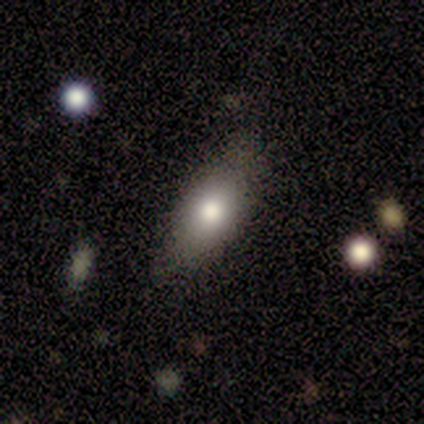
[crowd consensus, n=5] Smooth or featured?
  - smooth: 60% *
  - featured or disk: 20%
  - star or artifact: 20%
How rounded?
  - in between: 100% *
  - round: 0%
  - cigar-shaped: 0%
Merging?
  - none: 75% *
  - minor disturbance: 25%
  - major disturbance: 0%
  - merger: 0%